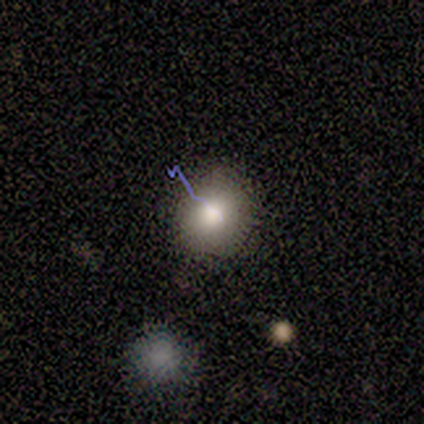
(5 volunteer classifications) A smooth galaxy with no disk features (100%) that is round (80%).

Vote fractions:
- Smooth or featured? smooth: 100% / featured or disk: 0% / star or artifact: 0%
- How rounded? round: 80% / in between: 20% / cigar-shaped: 0%
- Merging? none: 80% / minor disturbance: 20% / major disturbance: 0% / merger: 0%